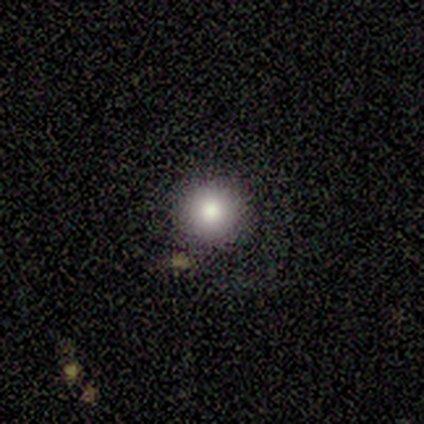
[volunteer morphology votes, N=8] A smooth galaxy with no disk features (75%) that is round (100%).

Vote fractions:
- Smooth or featured? smooth: 75% / star or artifact: 25% / featured or disk: 0%
- How rounded? round: 100% / in between: 0% / cigar-shaped: 0%
- Merging? none: 83% / minor disturbance: 17% / major disturbance: 0% / merger: 0%